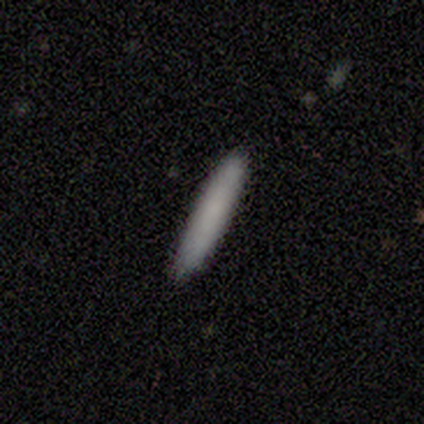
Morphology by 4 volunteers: Smooth or featured? 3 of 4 (75%) said smooth. How rounded? 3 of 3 (100%) said cigar-shaped. Merging? 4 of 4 (100%) said none.